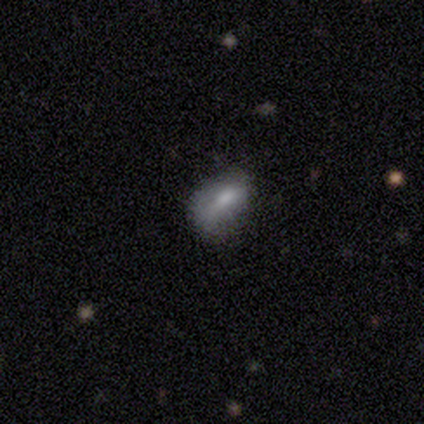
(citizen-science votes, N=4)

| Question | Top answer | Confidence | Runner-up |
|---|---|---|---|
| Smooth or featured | smooth | 50% | featured or disk (25%) |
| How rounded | round | 50% | tied: in between (50%) |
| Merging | major disturbance | 67% | none (33%) |